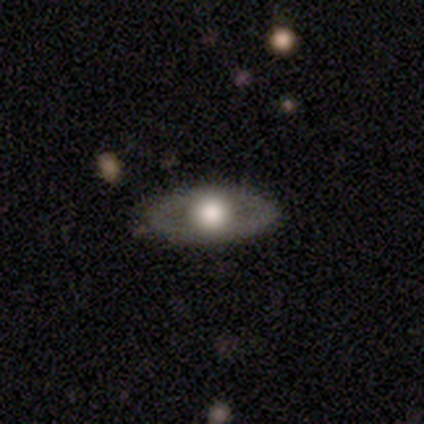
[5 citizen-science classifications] Volunteers were most divided on "smooth or featured" (2-way tie): smooth: 40%, featured or disk: 40%, star or artifact: 20%. More confident: how rounded — in between (100%); merging — none (100%).